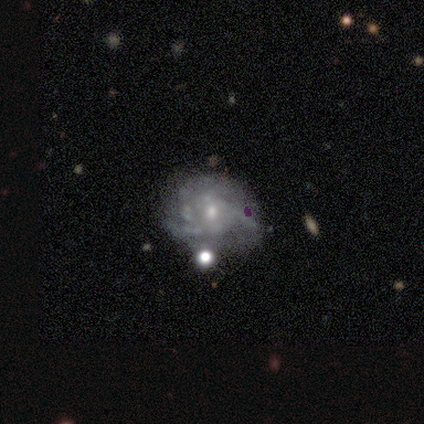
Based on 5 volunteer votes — This is clearly a featured or disk galaxy (80%). It is clearly not viewed edge-on (100%). Bar: possibly weak (50%, tied with no). Spiral arm pattern: clearly yes (100%). Spiral arm count: possibly 4 (50%, tied with can't tell). Spiral winding: possibly tight (50%, tied with loose). Central bulge: likely moderate (75%). Merging: likely minor disturbance (60%).